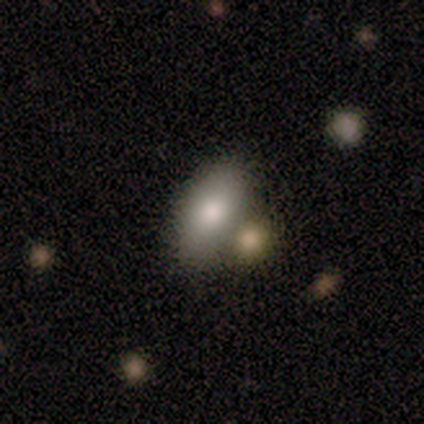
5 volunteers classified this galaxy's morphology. Smooth or featured?
  - smooth: 80% *
  - star or artifact: 20%
  - featured or disk: 0%
How rounded?
  - in between: 100% *
  - round: 0%
  - cigar-shaped: 0%
Merging?
  - none: 50% *
  - minor disturbance: 25%
  - merger: 25%
  - major disturbance: 0%